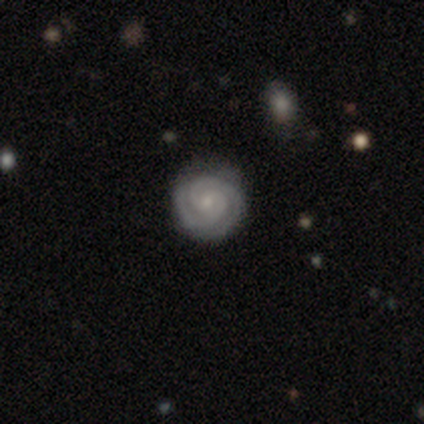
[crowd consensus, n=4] Smooth or featured?
  - featured or disk: 75% *
  - smooth: 25%
  - star or artifact: 0%
Edge-on disk?
  - no: 100% *
  - yes: 0%
Bar?
  - no: 67% *
  - weak: 33%
  - strong: 0%
Spiral arms?
  - yes: 100% *
  - no: 0%
Spiral winding?
  - tight: 67% *
  - medium: 33%
  - loose: 0%
Spiral arm count?
  - 2: 100% *
  - 1: 0%
  - 3: 0%
  - 4: 0%
  - more than 4: 0%
  - can't tell: 0%
Bulge size?
  - small: 100% *
  - dominant: 0%
  - large: 0%
  - moderate: 0%
  - none: 0%
Merging?
  - none: 100% *
  - minor disturbance: 0%
  - major disturbance: 0%
  - merger: 0%